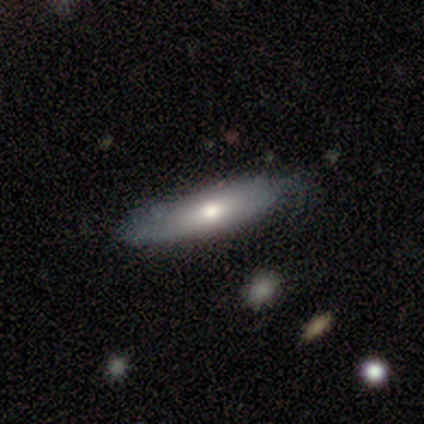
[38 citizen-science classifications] smooth-or-featured: smooth: 63% | featured or disk: 34% | star or artifact: 3%
  how-rounded: cigar-shaped: 58% | in between: 38% | round: 4%
  merging: none: 84% | minor disturbance: 14% | major disturbance: 3% | merger: 0%